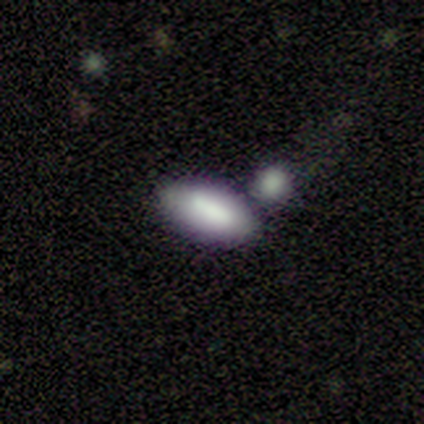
Smooth or featured? 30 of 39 (77%) said smooth. How rounded? 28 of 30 (93%) said in between. Merging? 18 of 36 (50%) said none.